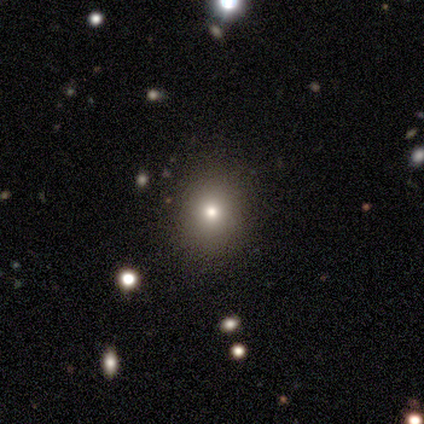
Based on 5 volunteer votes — This is marginally a smooth galaxy (40%, tied with featured or disk). How rounded: possibly round (50%, tied with in between). Merging: clearly none (100%).